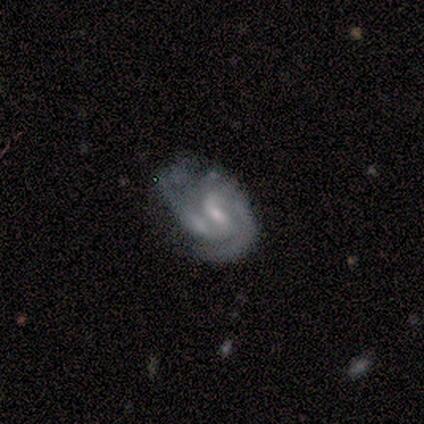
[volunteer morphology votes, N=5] smooth-or-featured: featured or disk: 100% | smooth: 0% | star or artifact: 0%
  disk-edge-on: no: 100% | yes: 0%
    bar: strong: 60% | weak: 20% | no: 20%
    has-spiral-arms: yes: 100% | no: 0%
      spiral-winding: medium: 60% | tight: 40% | loose: 0%
      spiral-arm-count: 2: 80% | can't tell: 20% | 1: 0% | 3: 0% | 4: 0% | more than 4: 0%
    bulge-size: small: 60% | moderate: 40% | dominant: 0% | large: 0% | none: 0%
  merging: minor disturbance: 60% | none: 20% | merger: 20% | major disturbance: 0%